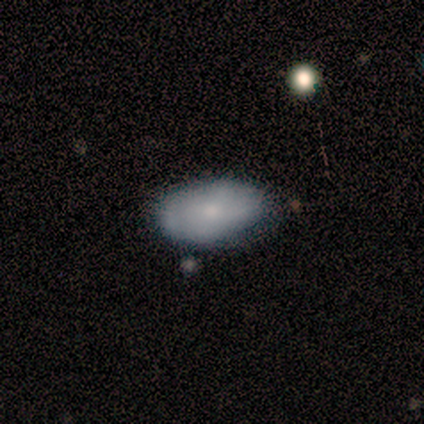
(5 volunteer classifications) Smooth or featured?
  - smooth: 80% *
  - featured or disk: 20%
  - star or artifact: 0%
How rounded?
  - in between: 100% *
  - round: 0%
  - cigar-shaped: 0%
Merging?
  - none: 60% *
  - minor disturbance: 40%
  - major disturbance: 0%
  - merger: 0%